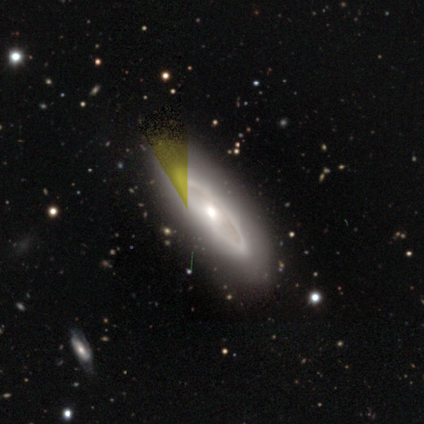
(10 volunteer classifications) A featured or disk galaxy (80%) with no bar (100%), no spiral arms (100%) and a moderate central bulge (80%).

Vote fractions:
- Smooth or featured? featured or disk: 80% / smooth: 10% / star or artifact: 10%
- Edge-on disk? no: 62% / yes: 38%
- Bar? no: 100% / strong: 0% / weak: 0%
- Spiral arms? no: 100% / yes: 0%
- Bulge size? moderate: 80% / small: 20% / dominant: 0% / large: 0% / none: 0%
- Merging? none: 78% / minor disturbance: 11% / major disturbance: 11% / merger: 0%